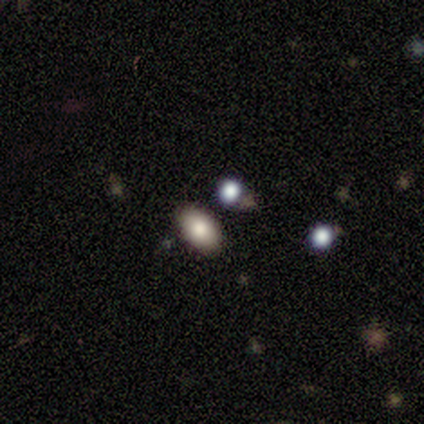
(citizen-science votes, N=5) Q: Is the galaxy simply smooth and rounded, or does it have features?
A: smooth — 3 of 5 (60%).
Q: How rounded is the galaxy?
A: in between — 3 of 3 (100%).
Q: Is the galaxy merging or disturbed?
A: none — 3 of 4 (75%).